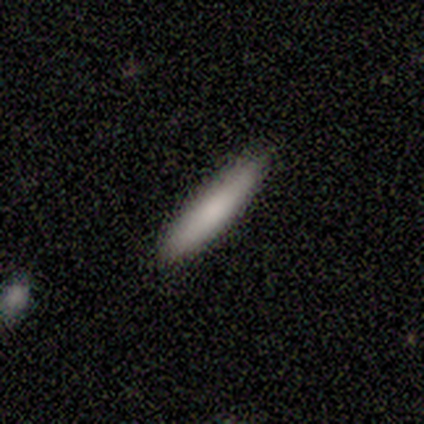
A smooth galaxy with no disk features (83%) that is cigar-shaped (100%).

Vote fractions:
- Smooth or featured? smooth: 83% / featured or disk: 17% / star or artifact: 0%
- How rounded? cigar-shaped: 100% / round: 0% / in between: 0%
- Merging? none: 100% / minor disturbance: 0% / major disturbance: 0% / merger: 0%